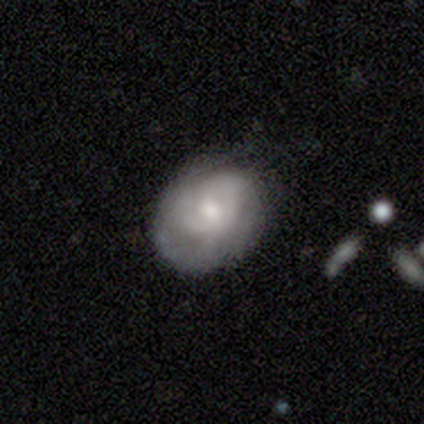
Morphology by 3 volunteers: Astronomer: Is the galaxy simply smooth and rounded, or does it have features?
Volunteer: featured or disk — 67%.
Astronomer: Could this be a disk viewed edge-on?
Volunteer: no — 100%.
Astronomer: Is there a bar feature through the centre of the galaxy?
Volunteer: weak — 50%, tied with no at 50%.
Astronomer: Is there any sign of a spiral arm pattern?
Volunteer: yes — 100%.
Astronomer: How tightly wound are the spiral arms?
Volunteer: medium — 100%.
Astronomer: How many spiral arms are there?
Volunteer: can't tell — 100%.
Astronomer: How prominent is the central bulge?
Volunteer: moderate — 50%, tied with small at 50%.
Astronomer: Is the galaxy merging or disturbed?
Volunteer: none — 67%.